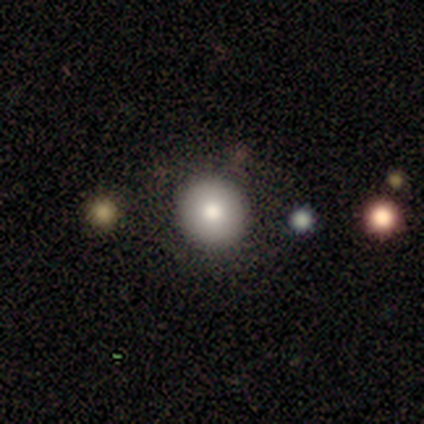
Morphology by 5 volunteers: Smooth or featured?
  - smooth: 60% *
  - featured or disk: 20%
  - star or artifact: 20%
How rounded?
  - round: 100% *
  - in between: 0%
  - cigar-shaped: 0%
Merging?
  - none: 75% *
  - minor disturbance: 25%
  - major disturbance: 0%
  - merger: 0%